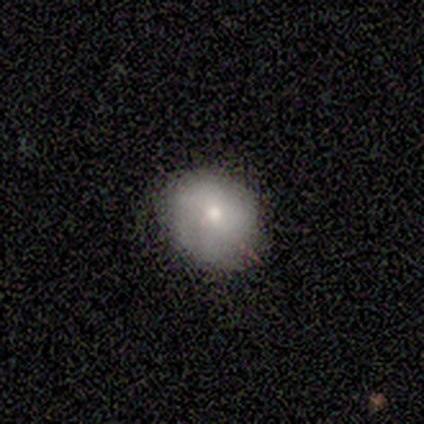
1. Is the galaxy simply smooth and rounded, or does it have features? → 80% smooth, 20% star or artifact, 0% featured or disk.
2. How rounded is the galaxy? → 100% round, 0% in between, 0% cigar-shaped.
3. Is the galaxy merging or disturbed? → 100% none, 0% minor disturbance, 0% major disturbance, 0% merger.